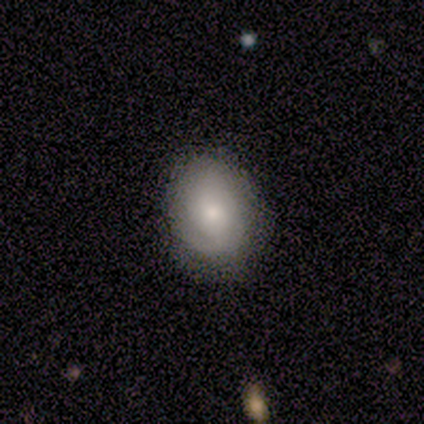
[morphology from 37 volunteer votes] smooth-or-featured: smooth: 76% | featured or disk: 16% | star or artifact: 8%
  how-rounded: in between: 61% | round: 39% | cigar-shaped: 0%
  merging: none: 74% | minor disturbance: 21% | major disturbance: 6% | merger: 0%